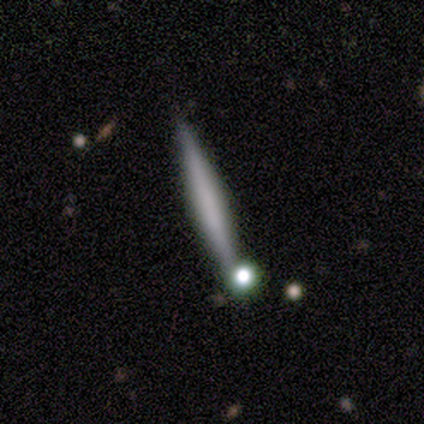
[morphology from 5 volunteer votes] type=smooth (60%); roundness=cigar-shaped (100%); merging=none (50%).